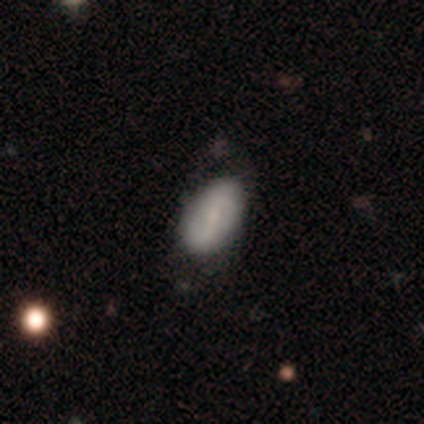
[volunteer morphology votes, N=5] Q: Smooth or featured?
A: featured or disk (80%); runner-up: smooth (20%)
Q: Edge-on disk?
A: no (100%)
Q: Bar?
A: weak (50%); runner-up: strong (25%)
Q: Spiral arms?
A: yes (75%); runner-up: no (25%)
Q: Spiral winding?
A: loose (67%); runner-up: tight (33%)
Q: Spiral arm count?
A: 2 (67%); runner-up: 3 (33%)
Q: Bulge size?
A: moderate (50%); runner-up: small (25%)
Q: Merging?
A: none (80%); runner-up: minor disturbance (20%)